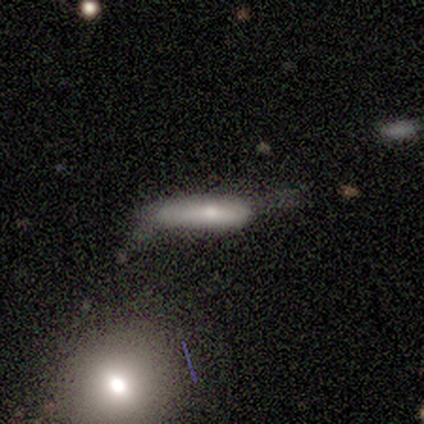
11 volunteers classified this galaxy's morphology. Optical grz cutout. It shows a smooth galaxy with no disk features (73%) that is cigar-shaped (88%). Merging: none (55%).